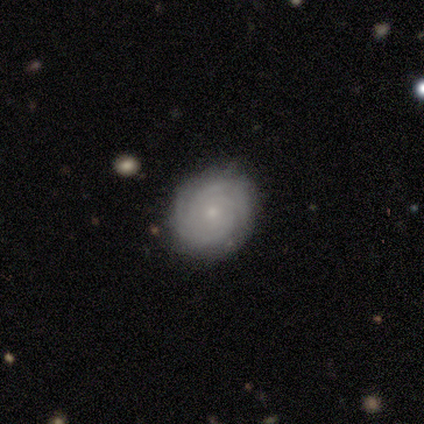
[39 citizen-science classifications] Overall: featured or disk (85%). Edge-on disk: no (100%). Bar: no (91%). Spiral arms: yes (91%). Spiral arm count: can't tell (33%; 4 27%). Spiral winding: tight (90%). Bulge size: small (73%). Merging: none (92%).